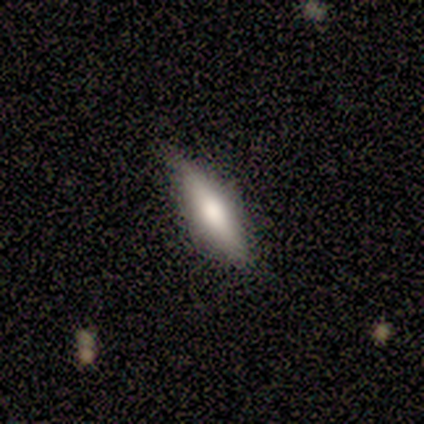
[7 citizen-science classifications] Morphology: type=smooth (57%); roundness=cigar-shaped (75%); merging=none (86%).